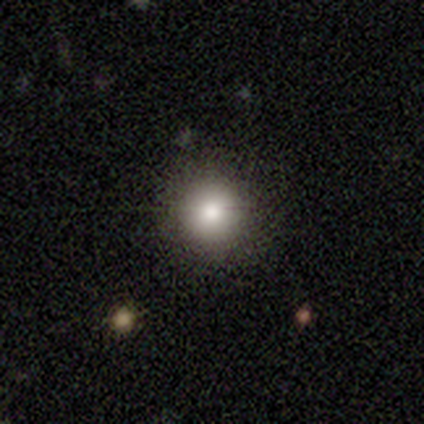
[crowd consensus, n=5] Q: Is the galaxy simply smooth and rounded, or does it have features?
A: smooth — 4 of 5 (80%).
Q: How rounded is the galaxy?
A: round — 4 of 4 (100%).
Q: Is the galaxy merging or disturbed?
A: none — 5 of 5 (100%).